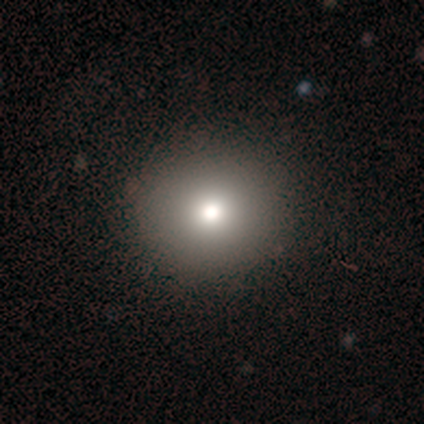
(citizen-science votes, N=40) A smooth galaxy with no disk features (82%) that is round (88%). Merging: none (68%).